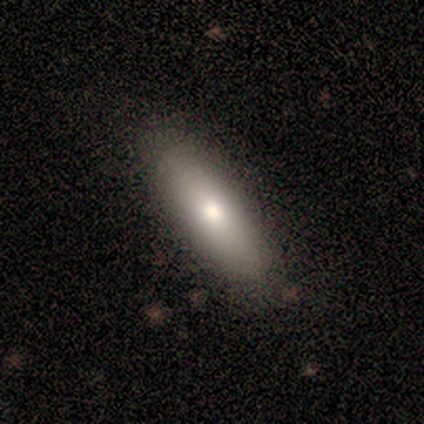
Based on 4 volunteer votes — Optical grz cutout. It shows a smooth galaxy with no disk features (100%) that is in between round and cigar-shaped (50%, tied with cigar-shaped). Merging: none (75%).